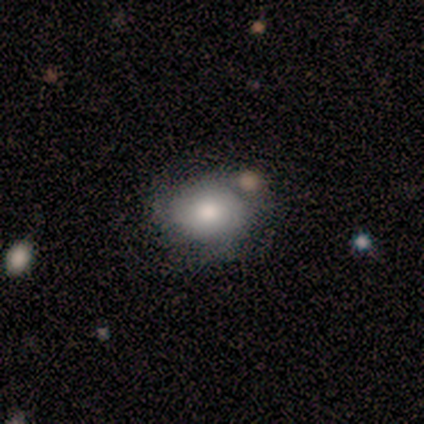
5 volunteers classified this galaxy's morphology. Smooth or featured: smooth — 80% (featured or disk — 20%)
How rounded: round — 50% (tied with in between — 50%)
Merging: none — 80% (merger — 20%)